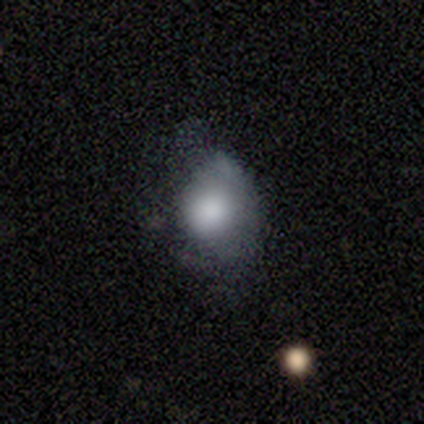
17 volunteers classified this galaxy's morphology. Smooth or featured?
  - smooth: 76% *
  - featured or disk: 18%
  - star or artifact: 6%
How rounded?
  - in between: 54% *
  - round: 38%
  - cigar-shaped: 8%
Merging?
  - minor disturbance: 50% *
  - major disturbance: 31%
  - none: 19%
  - merger: 0%